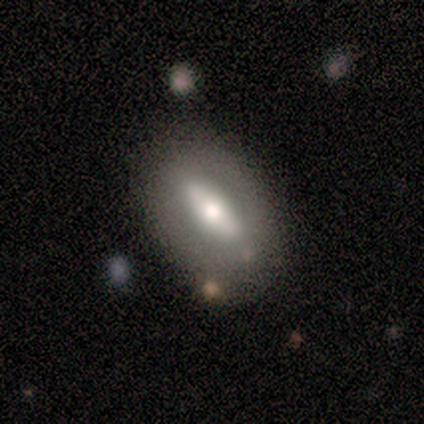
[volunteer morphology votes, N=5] Q: Smooth or featured?
A: smooth (60%); runner-up: featured or disk (40%)
Q: How rounded?
A: in between (100%)
Q: Merging?
A: none (80%); runner-up: minor disturbance (20%)